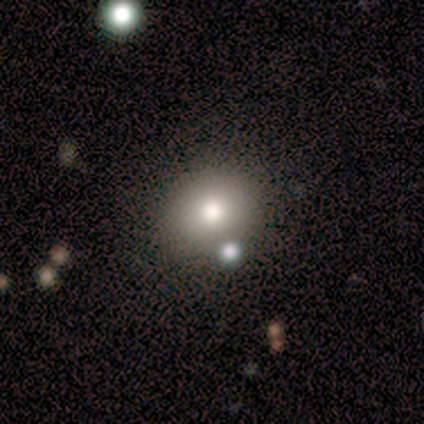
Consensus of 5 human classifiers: Volunteers were most divided on "merging": none: 60%, merger: 40%, minor disturbance: 0%, major disturbance: 0%. More confident: smooth or featured — smooth (100%); how rounded — round (100%).